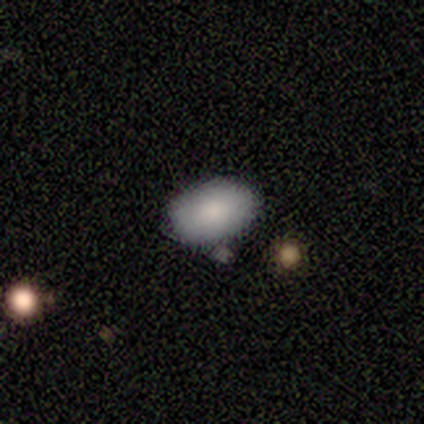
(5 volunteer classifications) smooth 80%, featured or disk 20%, star or artifact 0%. Down the decision tree: how rounded — in between (100%); merging — none (60%).